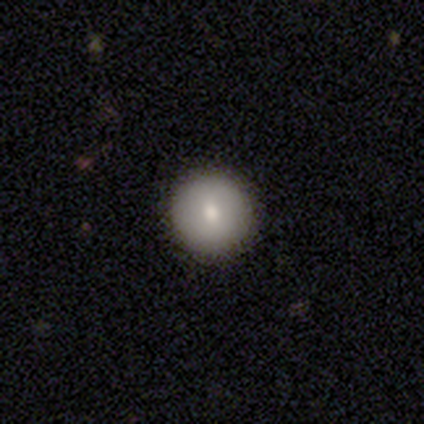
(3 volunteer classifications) This appears to be a smooth galaxy with no disk features (100%) that is round (100%). Merging: none (100%).